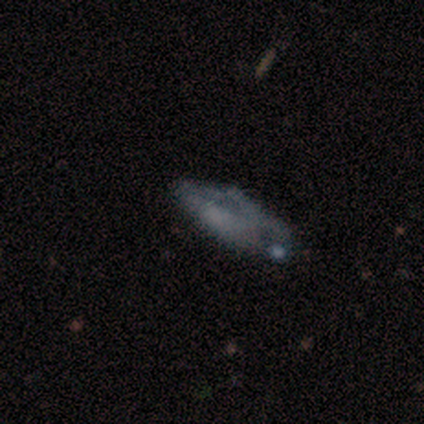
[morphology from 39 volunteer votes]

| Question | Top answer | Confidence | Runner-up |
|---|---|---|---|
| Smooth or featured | smooth | 51% | featured or disk (44%) |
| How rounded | in between | 80% | cigar-shaped (15%) |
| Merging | none | 38% | minor disturbance (24%) |